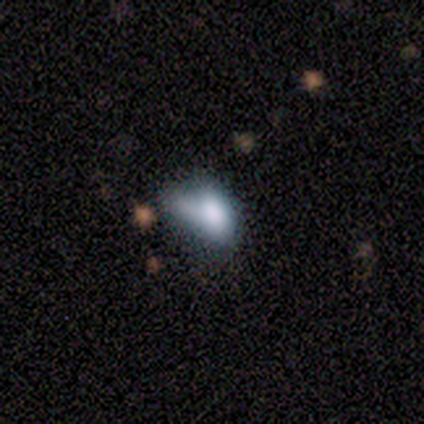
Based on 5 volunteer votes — This appears to be a smooth galaxy with no disk features (40%, tied with star or artifact) that is in between round and cigar-shaped (100%). Merging: merger (67%).